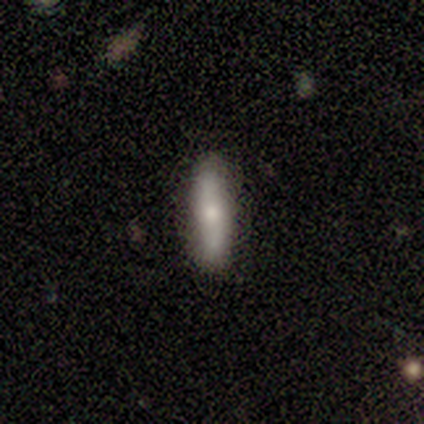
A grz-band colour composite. It shows a smooth galaxy with no disk features (100%) that is in between round and cigar-shaped (60%). Merging: none (100%).